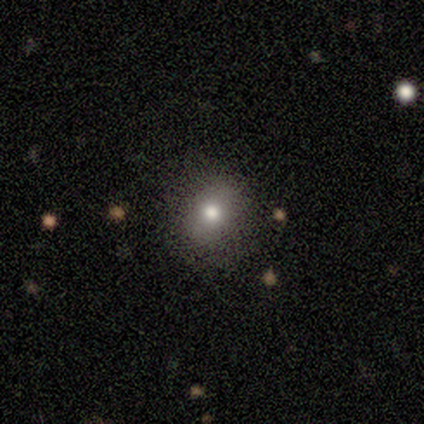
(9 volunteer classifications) This is marginally a smooth galaxy (44%, tied with star or artifact). How rounded: possibly round (50%, tied with in between). Merging: clearly none (80%).